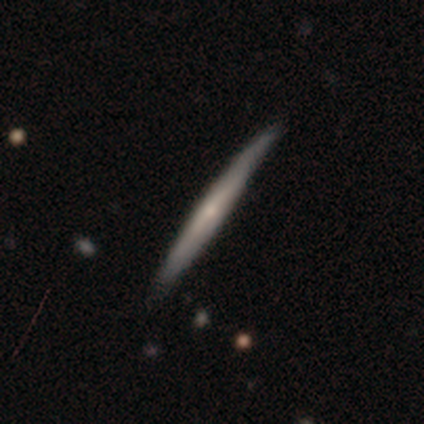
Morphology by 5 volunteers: Smooth or featured?
  - smooth: 60% *
  - featured or disk: 40%
  - star or artifact: 0%
How rounded?
  - cigar-shaped: 100% *
  - round: 0%
  - in between: 0%
Merging?
  - none: 100% *
  - minor disturbance: 0%
  - major disturbance: 0%
  - merger: 0%